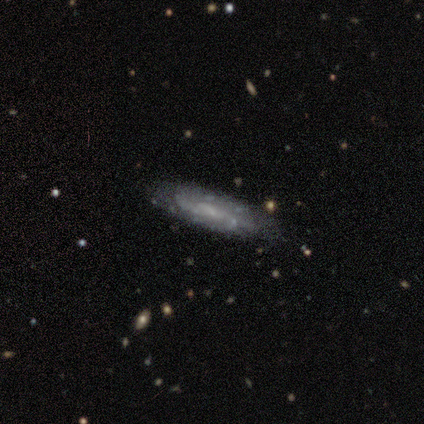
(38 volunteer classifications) This is likely a featured or disk galaxy (71%). It is clearly not viewed edge-on (81%). Bar: clearly no (82%). Spiral arm pattern: clearly yes (82%). Spiral arm count: likely can't tell (72%). Spiral winding: possibly tight (50%). Central bulge: possibly small (59%). Merging: likely none (78%).